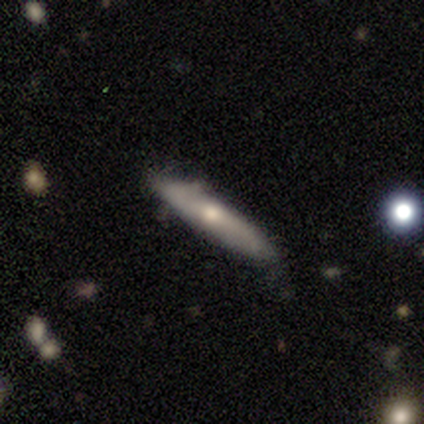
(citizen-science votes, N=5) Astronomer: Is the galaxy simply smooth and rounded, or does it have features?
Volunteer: smooth — 80%.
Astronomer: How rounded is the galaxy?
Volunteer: cigar-shaped — 75%.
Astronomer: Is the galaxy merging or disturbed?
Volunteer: none — 80%.